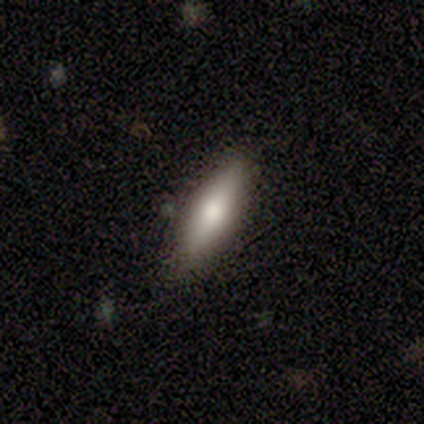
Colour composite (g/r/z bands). It shows a featured or disk galaxy (80%) viewed edge-on (100%) with a rounded central bulge (100%). Merging: none (100%).